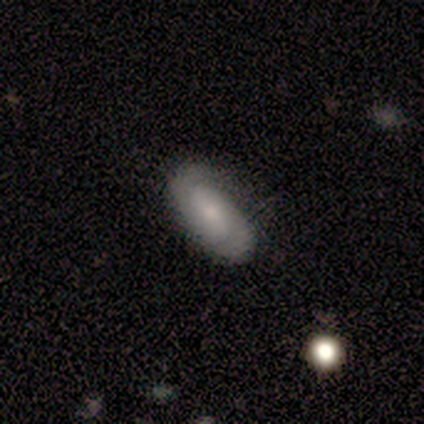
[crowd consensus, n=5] Smooth or featured? smooth (60%)
How rounded? in between (67%)
Merging? none (80%)